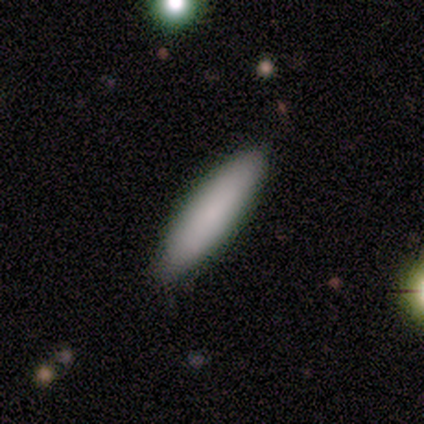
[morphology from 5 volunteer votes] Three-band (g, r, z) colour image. It shows a featured or disk galaxy (60%) viewed edge-on (67%) with a boxy central bulge (50%, tied with none). Merging: none (80%).